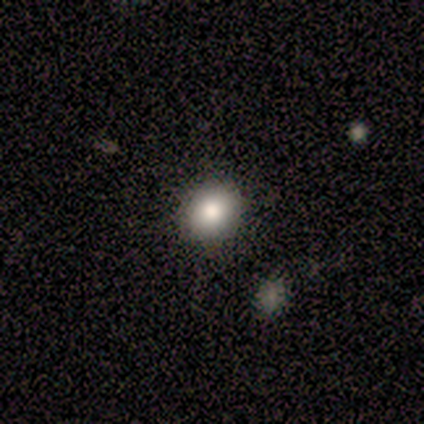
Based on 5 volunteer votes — smooth 80%, star or artifact 20%, featured or disk 0%. Down the decision tree: how rounded — round (50%, tied with in between); merging — none (100%).